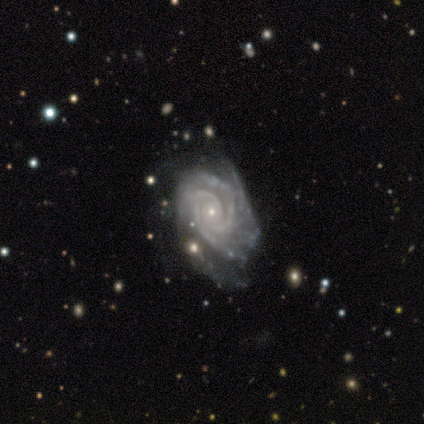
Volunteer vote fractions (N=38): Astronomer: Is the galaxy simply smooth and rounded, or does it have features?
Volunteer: featured or disk — 97%.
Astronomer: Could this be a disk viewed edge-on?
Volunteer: no — 100%.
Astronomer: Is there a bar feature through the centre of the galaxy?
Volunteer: no — 73%.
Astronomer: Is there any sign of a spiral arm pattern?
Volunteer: yes — 100%.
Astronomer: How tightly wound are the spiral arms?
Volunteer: tight — 78%.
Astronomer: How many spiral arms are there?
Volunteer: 3 — 32% (runner-up: 2, 24%).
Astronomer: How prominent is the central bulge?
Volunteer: small — 95%.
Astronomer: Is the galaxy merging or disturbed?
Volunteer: none — 59%.